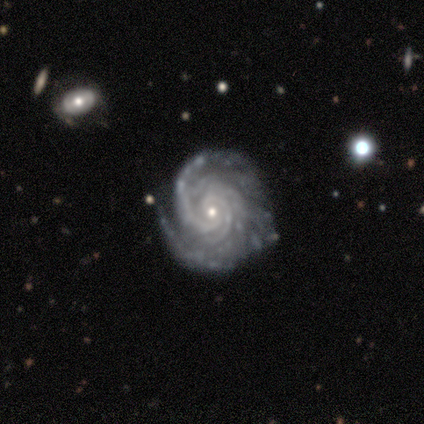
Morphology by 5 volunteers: This is clearly a featured or disk galaxy (100%). It is clearly not viewed edge-on (100%). Bar: likely no (60%). Spiral arm pattern: clearly yes (100%). Spiral arm count: likely can't tell (60%). Spiral winding: likely tight (60%). Central bulge: likely small (60%). Merging: likely none (60%).